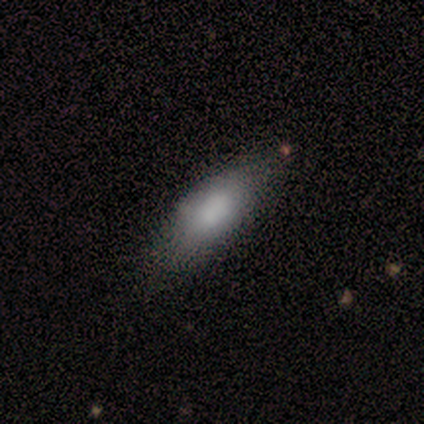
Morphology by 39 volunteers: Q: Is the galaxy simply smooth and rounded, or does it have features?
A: smooth — 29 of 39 (74%).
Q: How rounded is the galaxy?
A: in between — 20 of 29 (69%).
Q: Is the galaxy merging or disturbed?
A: none — 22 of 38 (58%).